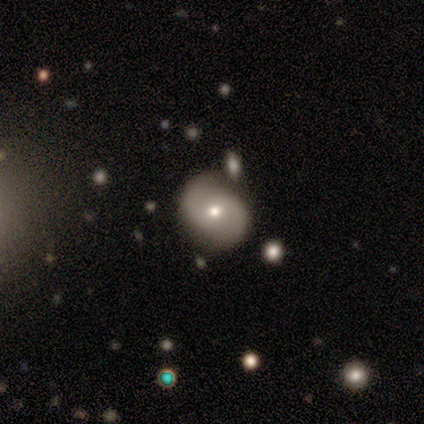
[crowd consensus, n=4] smooth_or_featured: featured or disk (p=1.00)
disk_edge_on: no (p=1.00)
bar: no (p=0.75) [alt: weak p=0.25]
has_spiral_arms: yes (p=0.75) [alt: no p=0.25]
spiral_winding: tight (p=0.67) [alt: medium p=0.33]
spiral_arm_count: 2 (p=1.00)
bulge_size: small (p=0.75) [alt: moderate p=0.25]
merging: none (p=0.75) [alt: minor disturbance p=0.25]